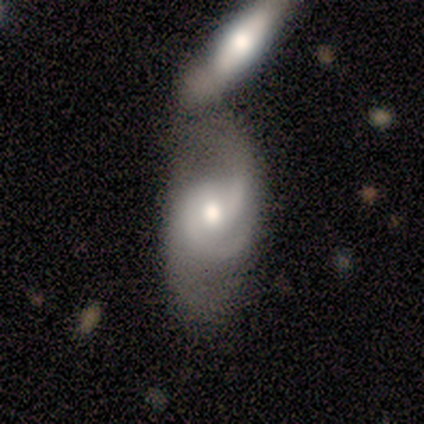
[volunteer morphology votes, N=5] Overall: featured or disk (100%). Edge-on disk: no (100%). Bar: weak (60%; no 40%). Spiral arms: yes (100%). Spiral arm count: 2 (60%; 3 40%). Spiral winding: tight (40%, tied with medium). Bulge size: moderate (60%; small 40%). Merging: merger (80%).